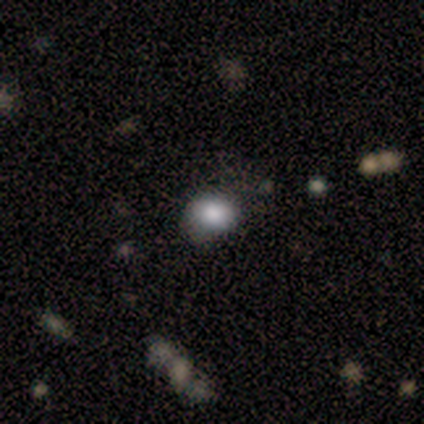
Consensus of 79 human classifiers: Volunteers were most divided on "how rounded": in between: 51%, round: 49%, cigar-shaped: 0%. Remaining: smooth or featured — smooth (86%); merging — none (36%).